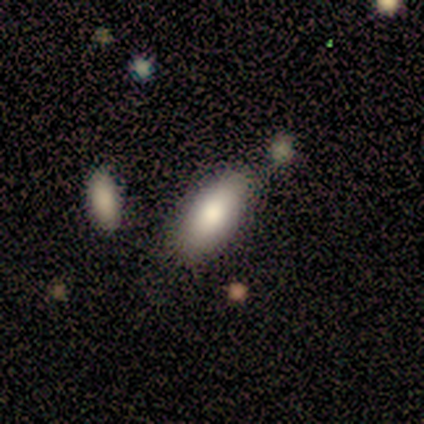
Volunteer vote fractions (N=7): Morphology: type=smooth (86%); roundness=in between (83%); merging=none (86%).